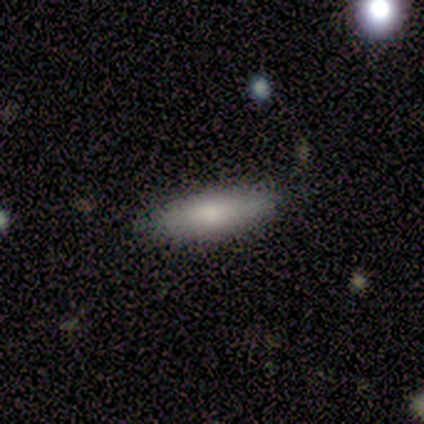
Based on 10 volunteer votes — Overall: smooth (90%). How rounded: cigar-shaped (67%; in between 33%). Merging: none (80%).